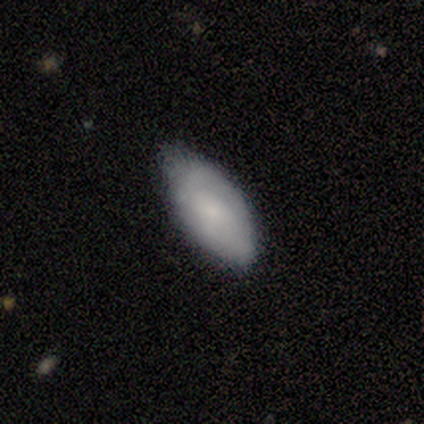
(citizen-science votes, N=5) smooth_or_featured: smooth (p=0.60) [alt: featured or disk p=0.40]
how_rounded: in between (p=1.00)
merging: none (p=0.80) [alt: minor disturbance p=0.20]